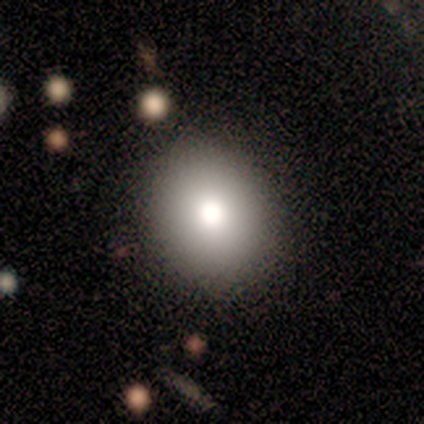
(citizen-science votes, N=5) Morphology: type=smooth (80%); roundness=round (50%, tied with in between); merging=none (100%).